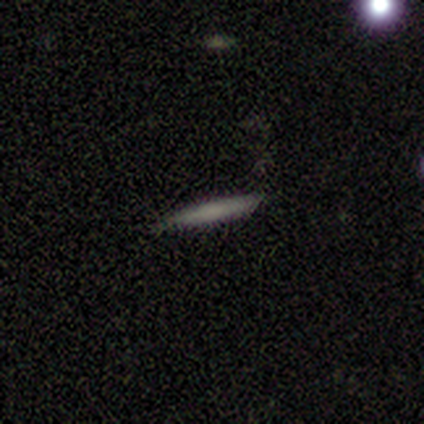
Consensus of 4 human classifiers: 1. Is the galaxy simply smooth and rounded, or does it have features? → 100% smooth, 0% featured or disk, 0% star or artifact.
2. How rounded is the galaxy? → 100% cigar-shaped, 0% round, 0% in between.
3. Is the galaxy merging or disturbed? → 100% none, 0% minor disturbance, 0% major disturbance, 0% merger.